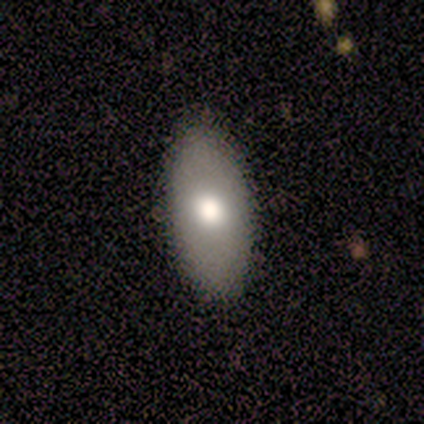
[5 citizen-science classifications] smooth-or-featured: smooth: 80% | star or artifact: 20% | featured or disk: 0%
  how-rounded: in between: 100% | round: 0% | cigar-shaped: 0%
  merging: none: 75% | major disturbance: 25% | minor disturbance: 0% | merger: 0%